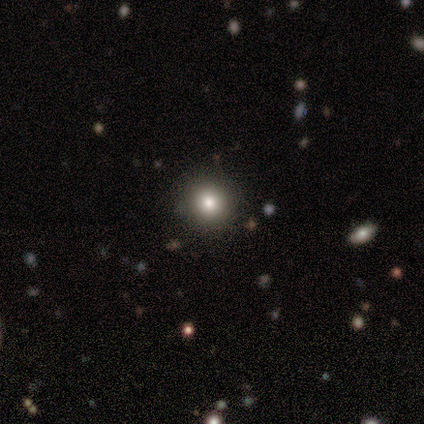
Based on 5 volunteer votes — This appears to be a smooth galaxy with no disk features (60%) that is round (100%). Merging: none (100%).